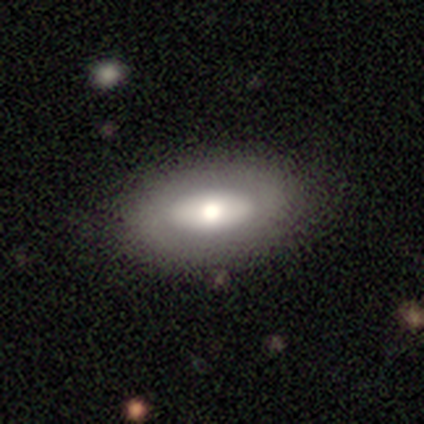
smooth 89%, featured or disk 11%, star or artifact 0%. Down the decision tree: how rounded — in between (88%); merging — none (89%).